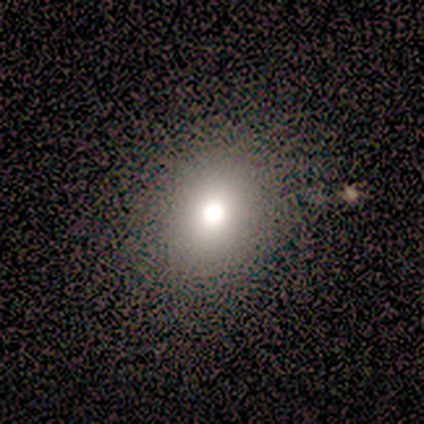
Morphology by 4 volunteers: This appears to be a smooth galaxy with no disk features (50%, tied with star or artifact) that is round (50%, tied with in between). Merging: minor disturbance (50%, tied with major disturbance).